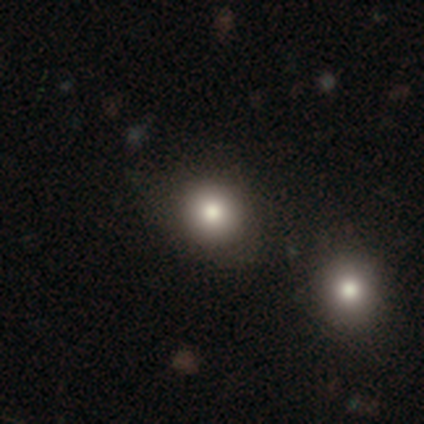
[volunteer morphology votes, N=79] Volunteers were most divided on "merging": none: 39%, merger: 14%, minor disturbance: 6%, major disturbance: 1%. More confident: how rounded — round (81%); smooth or featured — smooth (80%).